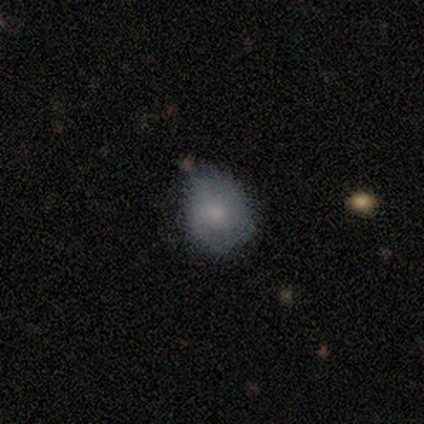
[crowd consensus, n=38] A smooth galaxy with no disk features (61%) that is in between round and cigar-shaped (52%). Merging: none (58%).